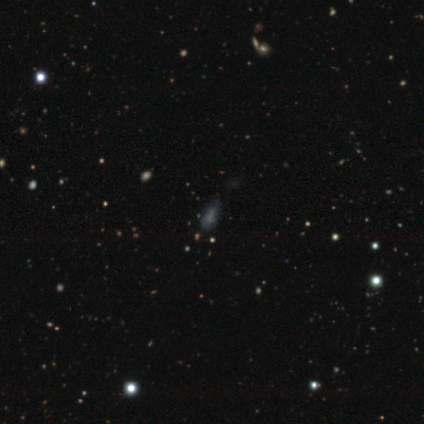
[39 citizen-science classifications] Morphology: type=star or artifact (41%).